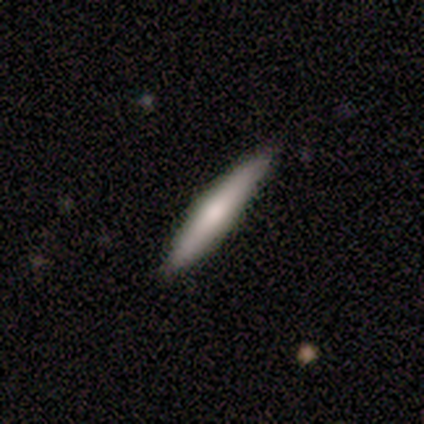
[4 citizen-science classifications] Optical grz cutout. It shows a smooth galaxy with no disk features (75%) that is cigar-shaped (100%). Merging: none (100%).